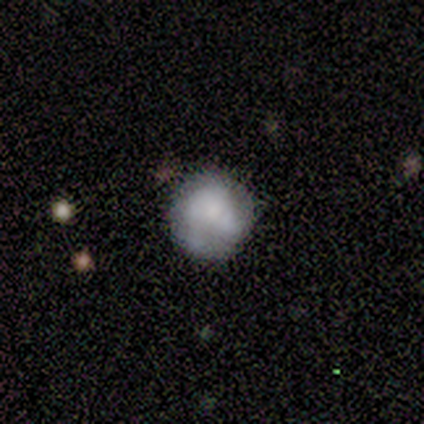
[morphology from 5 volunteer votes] This appears to be a smooth galaxy with no disk features (60%) that is round (67%). Merging: none (50%, tied with minor disturbance).